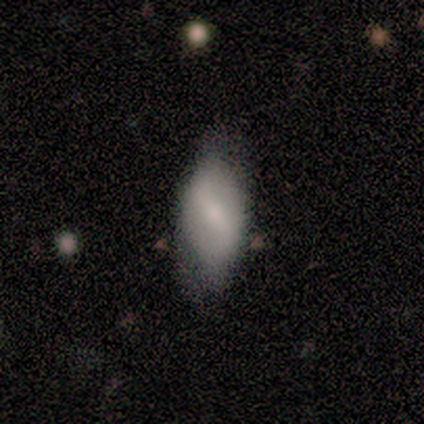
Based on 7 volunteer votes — Q: Smooth or featured?
A: featured or disk (86%); runner-up: smooth (14%)
Q: Edge-on disk?
A: no (100%)
Q: Bar?
A: strong (67%); runner-up: weak (33%)
Q: Spiral arms?
A: yes (50%); tied with: no (50%)
Q: Spiral winding?
A: tight (33%); tied with: medium (33%); loose (33%)
Q: Spiral arm count?
A: 2 (100%)
Q: Bulge size?
A: small (50%); runner-up: moderate (33%)
Q: Merging?
A: none (71%); runner-up: minor disturbance (14%)